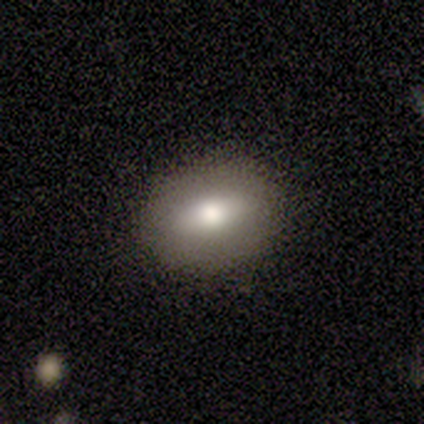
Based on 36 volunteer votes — Overall: smooth (81%). How rounded: in between (69%). Merging: none (85%).